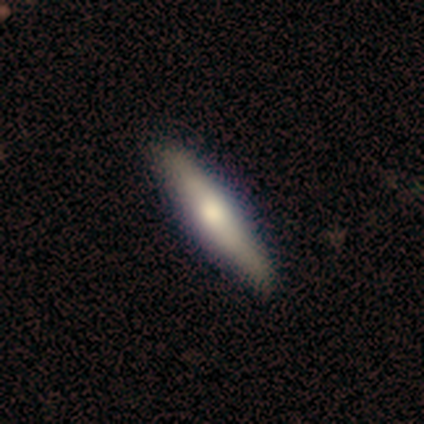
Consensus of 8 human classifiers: Smooth or featured? featured or disk (50%)
Edge-on disk? yes (75%)
Edge-on bulge? rounded (67%)
Merging? none (100%)